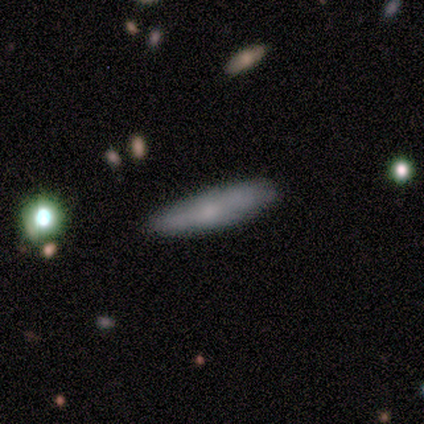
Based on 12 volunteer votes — A smooth galaxy with no disk features (67%) that is cigar-shaped (88%). Merging: none (73%).